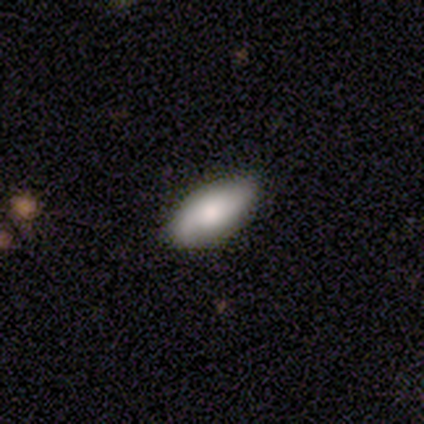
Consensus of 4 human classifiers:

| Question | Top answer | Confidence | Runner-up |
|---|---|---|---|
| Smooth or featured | smooth | 100% | — |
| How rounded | in between | 100% | — |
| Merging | none | 100% | — |